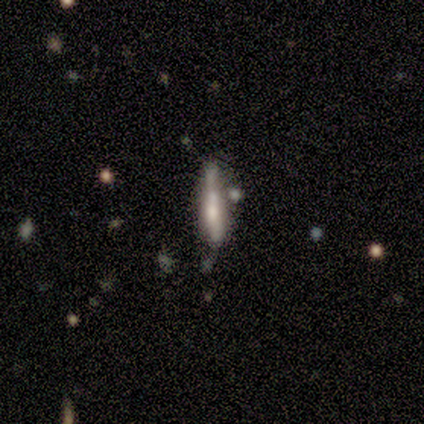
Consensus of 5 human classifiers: Volunteers were most divided on "merging": merger: 50%, minor disturbance: 25%, major disturbance: 25%, none: 0%. More confident: how rounded — cigar-shaped (100%); smooth or featured — smooth (60%).